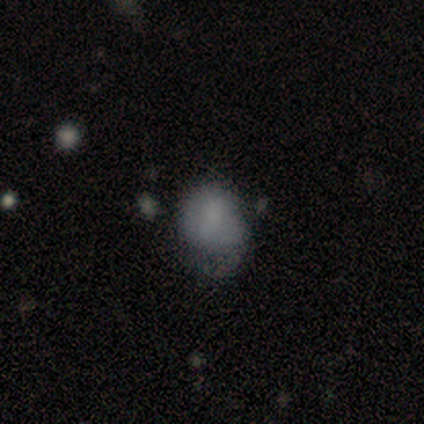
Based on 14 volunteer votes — A smooth galaxy with no disk features (71%) that is in between round and cigar-shaped (80%). Merging: none (54%).